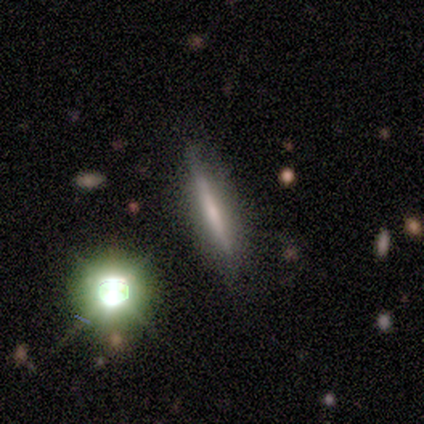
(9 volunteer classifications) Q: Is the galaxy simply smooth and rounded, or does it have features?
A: smooth — 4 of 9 (44%, tied with featured or disk).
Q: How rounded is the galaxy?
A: cigar-shaped — 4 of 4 (100%).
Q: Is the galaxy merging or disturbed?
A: none — 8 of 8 (100%).